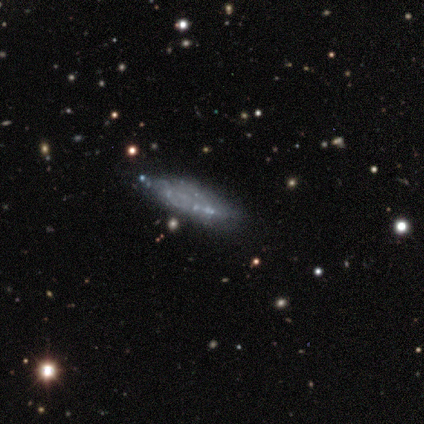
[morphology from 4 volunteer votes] Volunteers were most divided on "smooth or featured" (2-way tie): smooth: 50%, featured or disk: 50%, star or artifact: 0%. More confident: how rounded — in between (100%); merging — none (75%).